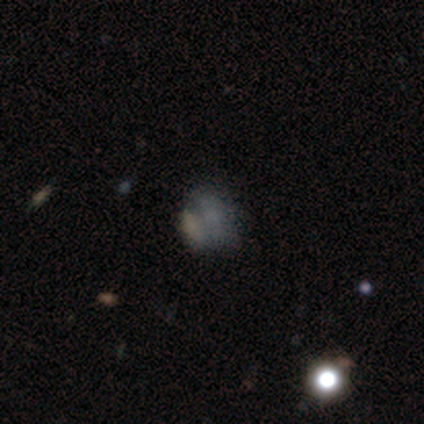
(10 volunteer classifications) Smooth or featured? featured or disk (50%)
Edge-on disk? no (100%)
Bar? no (80%)
Spiral arms? no (80%)
Bulge size? none (80%)
Merging? merger (44%)